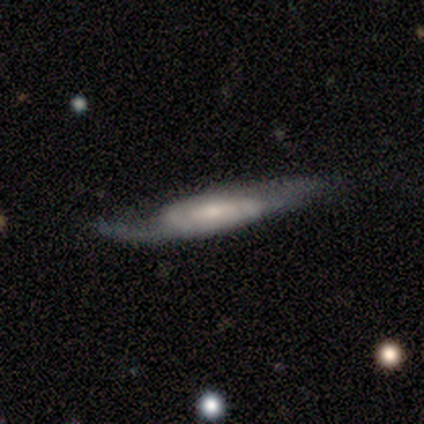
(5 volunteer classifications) smooth_or_featured: featured or disk (p=0.80) [alt: smooth p=0.20]
disk_edge_on: yes (p=0.50) [tied with: no p=0.50]
edge_on_bulge: none (p=1.00)
merging: none (p=0.40) [tied with: major disturbance p=0.40]